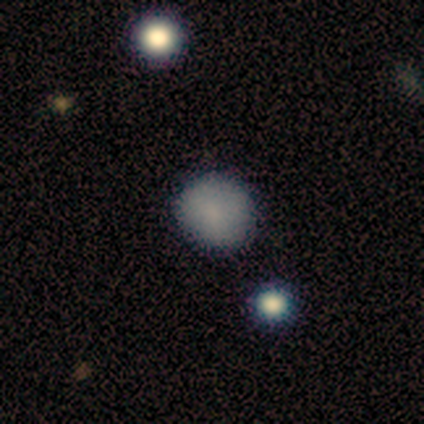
smooth 100%, featured or disk 0%, star or artifact 0%. Down the decision tree: how rounded — round (92%); merging — none (100%).